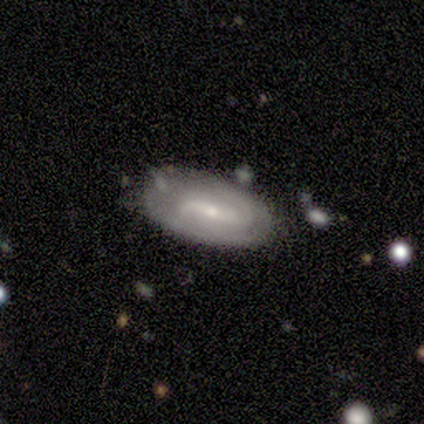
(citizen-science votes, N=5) Smooth or featured? 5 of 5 (100%) said featured or disk. Edge-on disk? 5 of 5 (100%) said no. Bar? 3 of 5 (60%) said weak. Spiral arms? 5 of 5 (100%) said yes. Spiral winding? 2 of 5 (40%, tied with loose) said tight. Spiral arm count? 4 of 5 (80%) said 2. Bulge size? 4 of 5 (80%) said small. Merging? 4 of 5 (80%) said none.